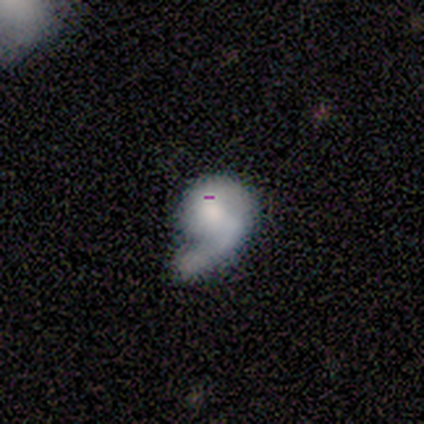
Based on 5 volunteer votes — Smooth or featured? featured or disk (60%)
Edge-on disk? no (100%)
Bar? no (67%)
Spiral arms? yes (67%)
Spiral winding? tight (50%, tied with loose)
Spiral arm count? 1 (100%)
Bulge size? large (33%, tied with moderate and small)
Merging? minor disturbance (40%)